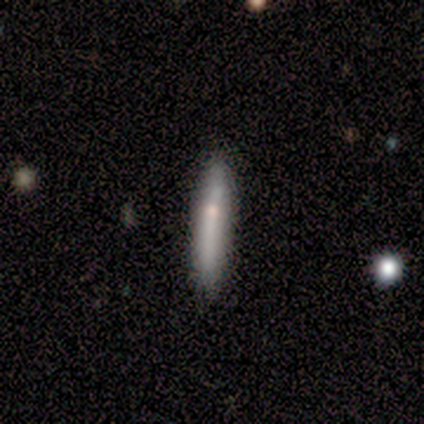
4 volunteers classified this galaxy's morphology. Smooth or featured: featured or disk — 50% (smooth — 25%)
Edge-on disk: yes — 50% (tied with no — 50%)
Edge-on bulge: none — 100%
Merging: minor disturbance — 67% (none — 33%)